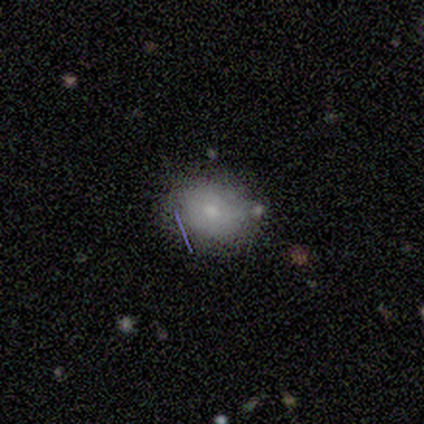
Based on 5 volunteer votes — Smooth or featured? smooth (80%)
How rounded? in between (75%)
Merging? none (80%)